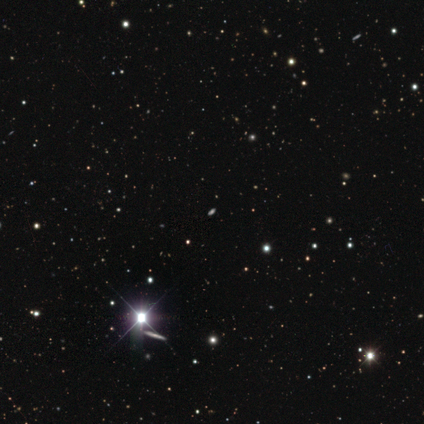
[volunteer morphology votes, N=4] star or artifact 75%, smooth 25%, featured or disk 0%.